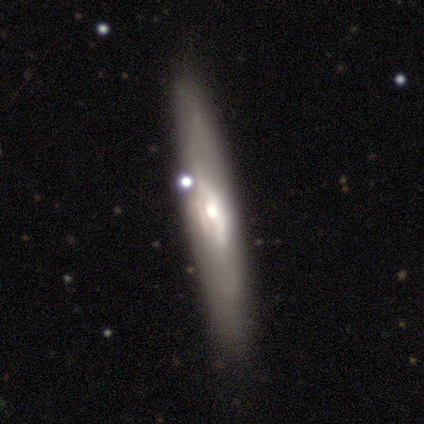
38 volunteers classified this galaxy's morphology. type=featured or disk (68%); edge-on=yes (81%); edge-on bulge=rounded (48%); merging=none (76%).